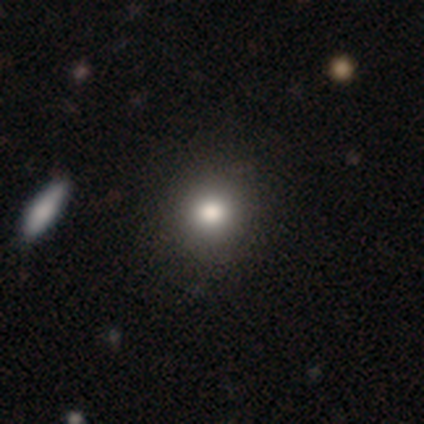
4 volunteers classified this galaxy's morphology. A smooth galaxy with no disk features (75%) that is round (67%).

Vote fractions:
- Smooth or featured? smooth: 75% / star or artifact: 25% / featured or disk: 0%
- How rounded? round: 67% / cigar-shaped: 33% / in between: 0%
- Merging? none: 67% / minor disturbance: 33% / major disturbance: 0% / merger: 0%